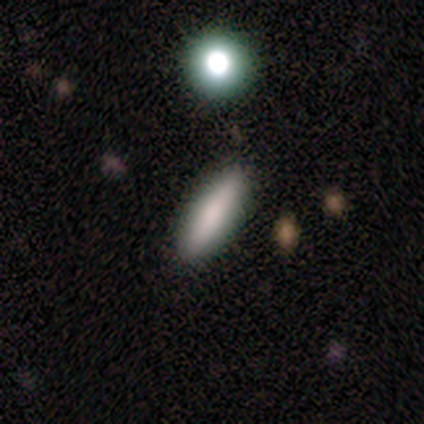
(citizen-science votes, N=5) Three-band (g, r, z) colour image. It shows a smooth galaxy with no disk features (100%) that is cigar-shaped (60%). Merging: none (80%).